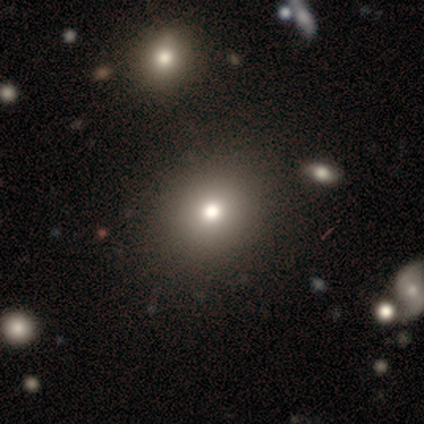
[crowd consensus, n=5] Morphology: type=smooth (80%); roundness=round (100%); merging=none (75%).